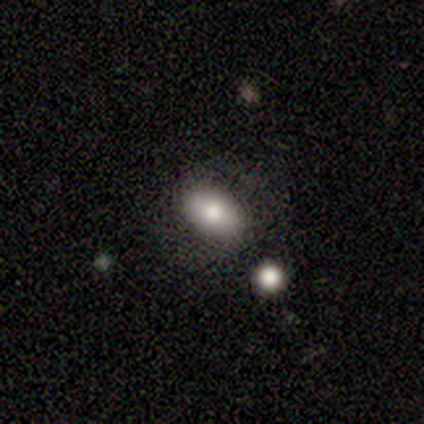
Overall: smooth (40%, tied with star or artifact). How rounded: in between (100%). Merging: none (67%; merger 33%).